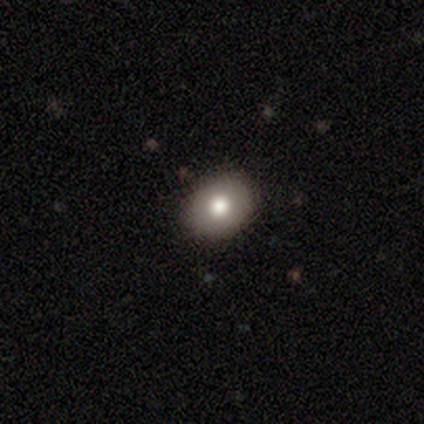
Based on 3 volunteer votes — Overall: smooth (100%). How rounded: round (67%; in between 33%). Merging: none (67%; major disturbance 33%).